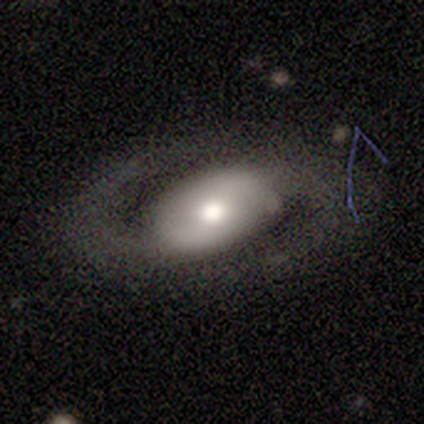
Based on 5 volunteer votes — Q: Smooth or featured?
A: featured or disk (100%)
Q: Edge-on disk?
A: no (100%)
Q: Bar?
A: no (60%); runner-up: strong (20%)
Q: Spiral arms?
A: yes (80%); runner-up: no (20%)
Q: Spiral winding?
A: medium (50%); tied with: loose (50%)
Q: Spiral arm count?
A: 2 (75%); runner-up: 1 (25%)
Q: Bulge size?
A: moderate (100%)
Q: Merging?
A: none (60%); runner-up: major disturbance (40%)